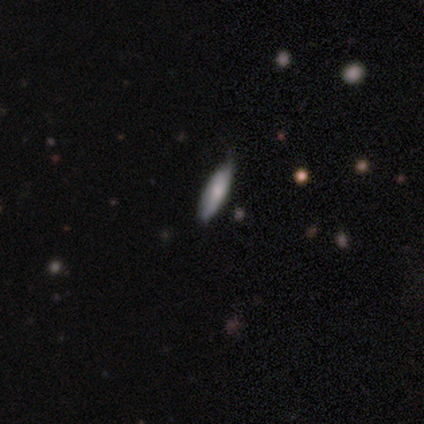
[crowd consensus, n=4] Smooth or featured: smooth — 75% (featured or disk — 25%)
How rounded: in between — 67% (cigar-shaped — 33%)
Merging: none — 75% (minor disturbance — 25%)